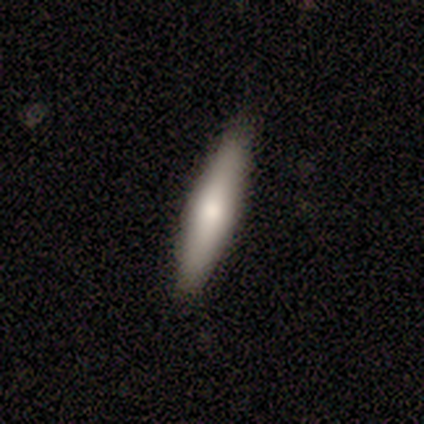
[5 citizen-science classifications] This is clearly a smooth galaxy (80%). How rounded: likely cigar-shaped (75%). Merging: clearly none (100%).